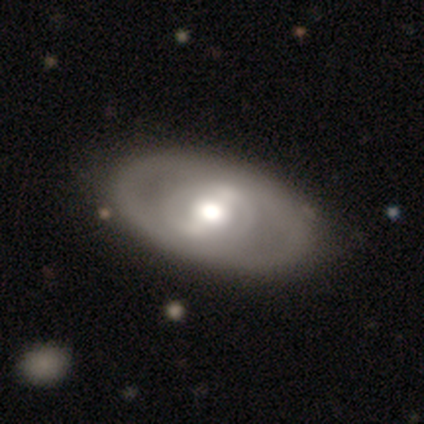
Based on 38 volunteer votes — Overall: featured or disk (82%). Edge-on disk: no (100%). Bar: strong (48%; no 29%). Spiral arms: no (84%). Bulge size: moderate (61%; large 32%). Merging: none (71%).